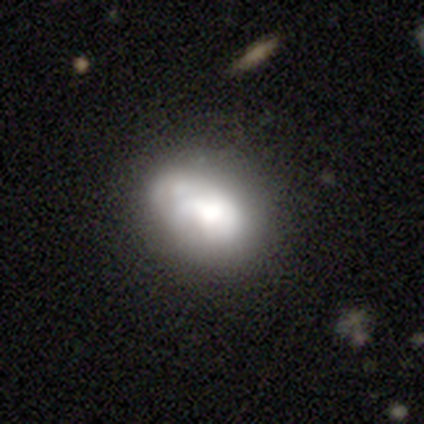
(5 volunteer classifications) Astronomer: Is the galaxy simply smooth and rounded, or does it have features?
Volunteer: featured or disk — 60% (runner-up: smooth, 40%).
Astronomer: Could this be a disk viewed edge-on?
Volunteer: no — 100%.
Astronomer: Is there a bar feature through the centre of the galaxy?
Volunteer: no — 100%.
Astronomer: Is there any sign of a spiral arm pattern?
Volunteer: no — 67%.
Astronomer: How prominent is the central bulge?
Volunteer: dominant — 33%, tied with large and none at 33%.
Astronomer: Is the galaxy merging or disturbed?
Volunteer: none — 40%, tied with minor disturbance at 40%.